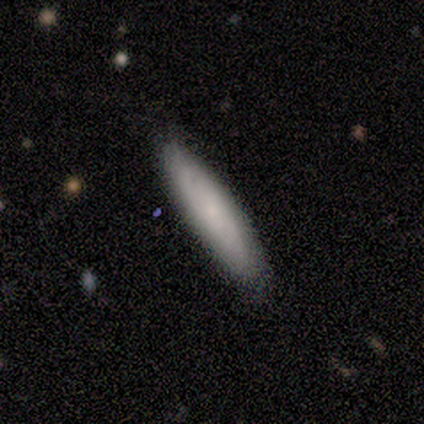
smooth_or_featured: smooth (p=0.75) [alt: featured or disk p=0.25]
how_rounded: cigar-shaped (p=1.00)
merging: none (p=1.00)